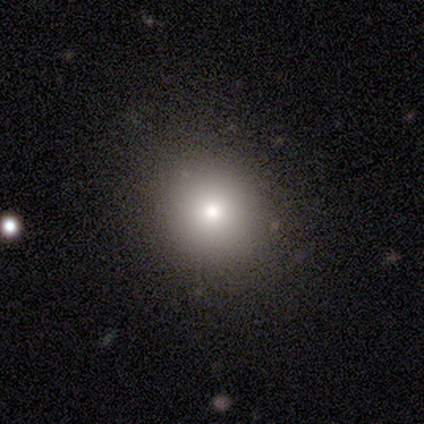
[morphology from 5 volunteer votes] This appears to be a smooth galaxy with no disk features (60%) that is round (100%). Merging: none (100%).